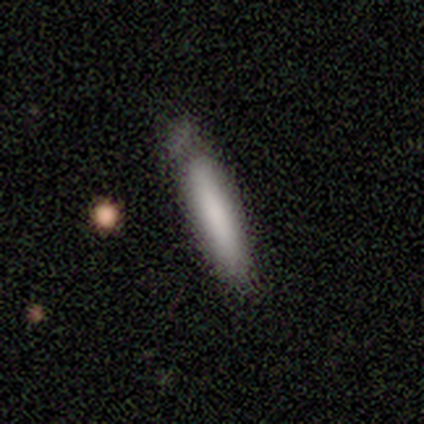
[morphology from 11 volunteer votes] A smooth galaxy with no disk features (73%) that is cigar-shaped (100%).

Vote fractions:
- Smooth or featured? smooth: 73% / featured or disk: 18% / star or artifact: 9%
- How rounded? cigar-shaped: 100% / round: 0% / in between: 0%
- Merging? none: 60% / minor disturbance: 30% / major disturbance: 10% / merger: 0%